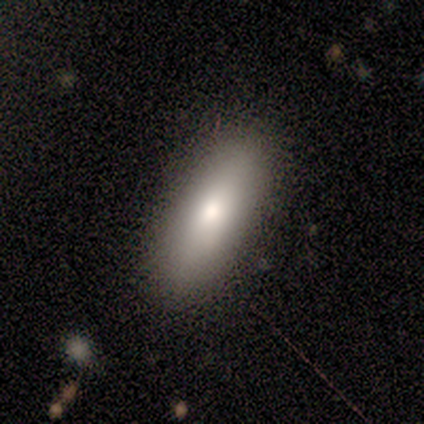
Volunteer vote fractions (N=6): This appears to be a smooth galaxy with no disk features (100%) that is in between round and cigar-shaped (83%). Merging: none (100%).